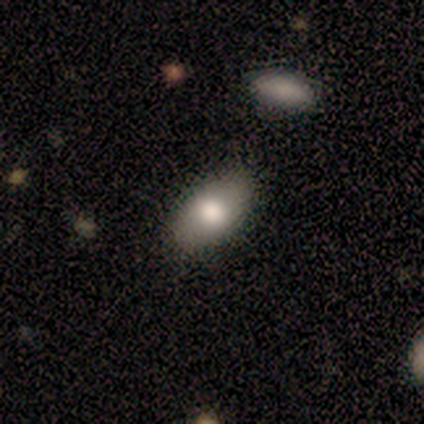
Smooth or featured? 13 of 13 (100%) said smooth. How rounded? 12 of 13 (92%) said in between. Merging? 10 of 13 (77%) said none.